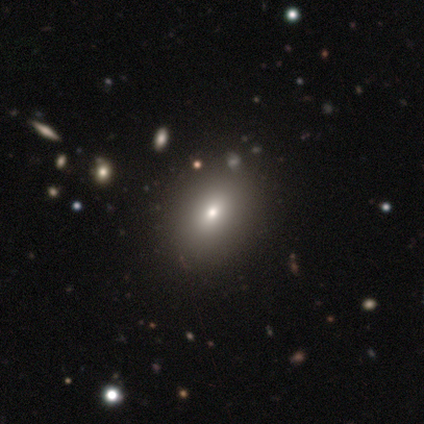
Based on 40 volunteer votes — Q: Smooth or featured?
A: smooth (72%); runner-up: star or artifact (18%)
Q: How rounded?
A: in between (72%); runner-up: round (17%)
Q: Merging?
A: none (45%); runner-up: merger (15%)